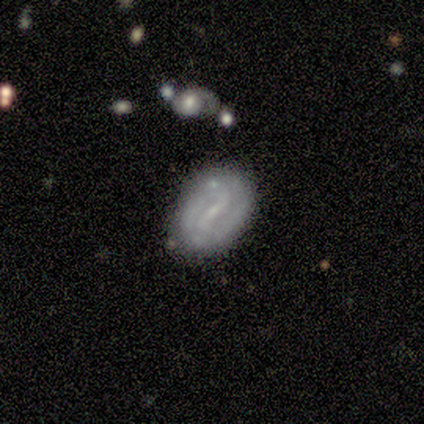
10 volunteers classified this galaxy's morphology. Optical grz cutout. It shows a featured or disk galaxy (90%) with a weak bar (56%), 2 (88%) loose (50%) spiral arms (89%) and a small central bulge (78%). Merging: none (90%).